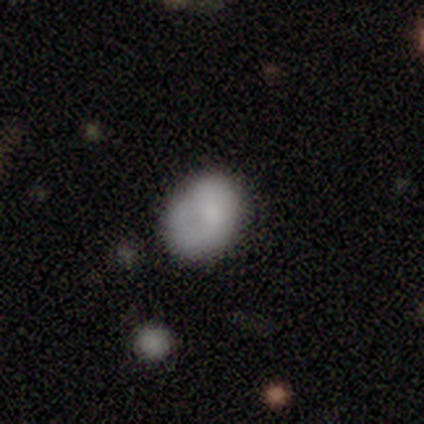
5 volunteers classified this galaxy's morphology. smooth_or_featured: smooth (p=0.60) [alt: featured or disk p=0.40]
how_rounded: in between (p=0.67) [alt: round p=0.33]
merging: none (p=0.60) [alt: minor disturbance p=0.40]